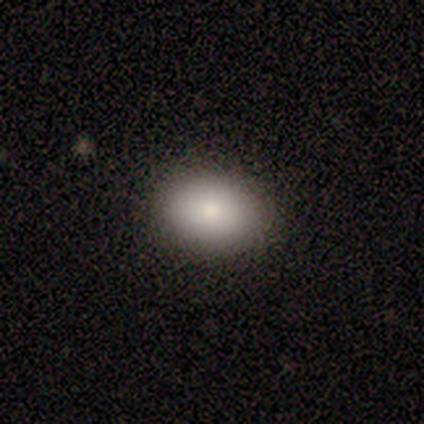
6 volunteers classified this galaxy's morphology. A smooth galaxy with no disk features (83%) that is in between round and cigar-shaped (80%). Merging: none (83%).